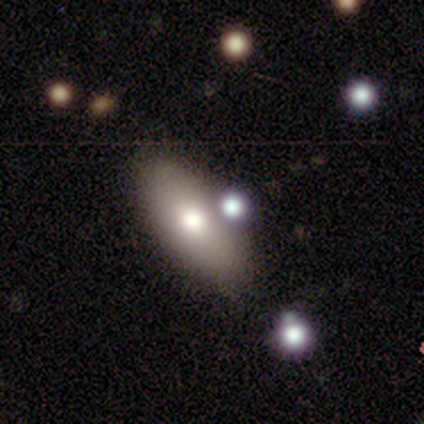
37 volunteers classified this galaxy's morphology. Smooth or featured? smooth (59%)
How rounded? in between (91%)
Merging? none (76%)